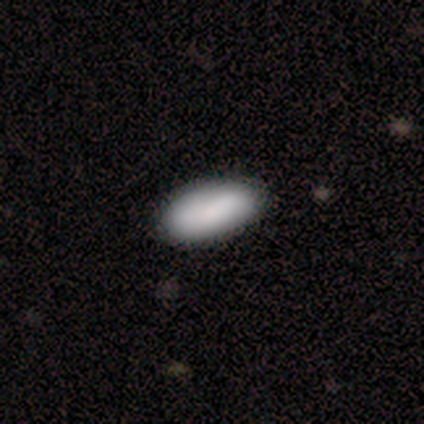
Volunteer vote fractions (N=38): Volunteers were most divided on "smooth or featured": smooth: 79%, featured or disk: 16%, star or artifact: 5%. More confident: how rounded — in between (93%); merging — none (67%).